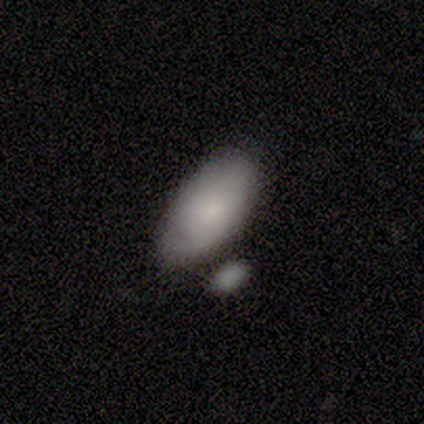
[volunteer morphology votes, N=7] smooth-or-featured: smooth: 57% | star or artifact: 29% | featured or disk: 14%
  how-rounded: in between: 100% | round: 0% | cigar-shaped: 0%
  merging: none: 40% (tied) | merger: 40% (tied) | minor disturbance: 20% | major disturbance: 0%